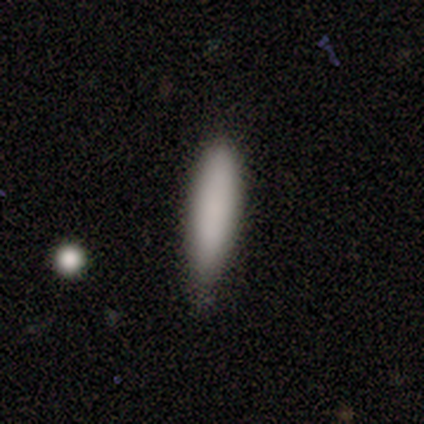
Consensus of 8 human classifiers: Smooth or featured?
  - smooth: 100% *
  - featured or disk: 0%
  - star or artifact: 0%
How rounded?
  - cigar-shaped: 75% *
  - in between: 25%
  - round: 0%
Merging?
  - none: 50% * (tied)
  - minor disturbance: 50% * (tied)
  - major disturbance: 0%
  - merger: 0%